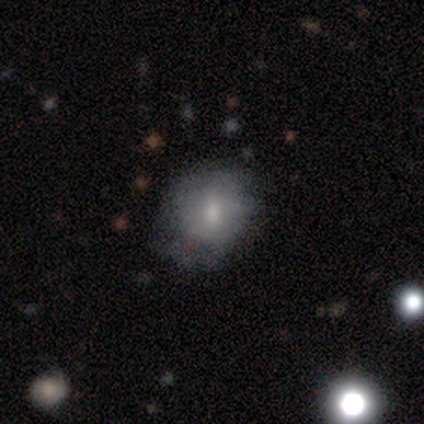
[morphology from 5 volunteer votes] A smooth galaxy with no disk features (80%) that is round (50%, tied with in between). Merging: minor disturbance (80%).